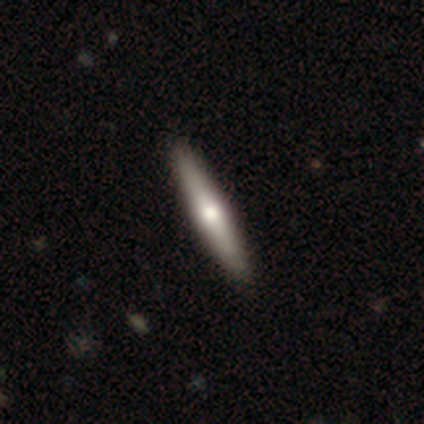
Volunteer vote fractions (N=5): Smooth or featured: featured or disk — 60% (smooth — 40%)
Edge-on disk: yes — 100%
Edge-on bulge: rounded — 100%
Merging: none — 100%